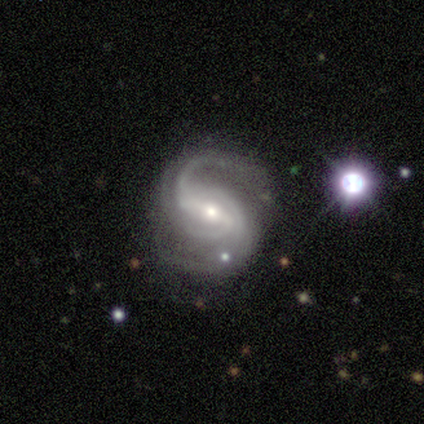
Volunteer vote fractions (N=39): A featured or disk galaxy (92%) with a weak bar (53%), 2 (47%) medium (62%) spiral arms (100%) and a small central bulge (56%). Merging: none (72%).